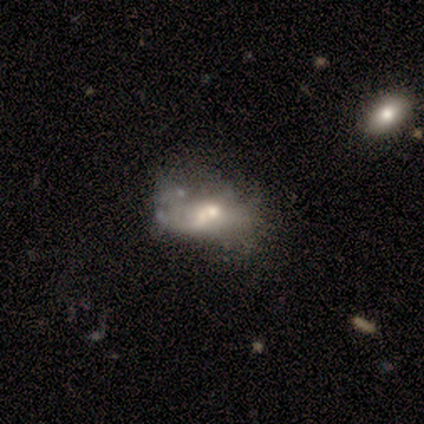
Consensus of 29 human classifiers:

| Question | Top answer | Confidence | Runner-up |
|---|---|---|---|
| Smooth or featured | featured or disk | 66% | smooth (31%) |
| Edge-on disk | no | 95% | yes (5%) |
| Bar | no | 56% | weak (28%) |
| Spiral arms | no | 67% | yes (33%) |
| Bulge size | moderate | 67% | large (11%) |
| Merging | merger | 50% | none (25%) |